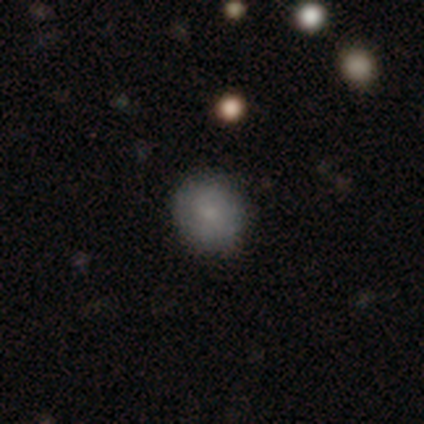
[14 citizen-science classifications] Smooth or featured? 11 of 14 (79%) said smooth. How rounded? 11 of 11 (100%) said round. Merging? 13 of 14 (93%) said none.